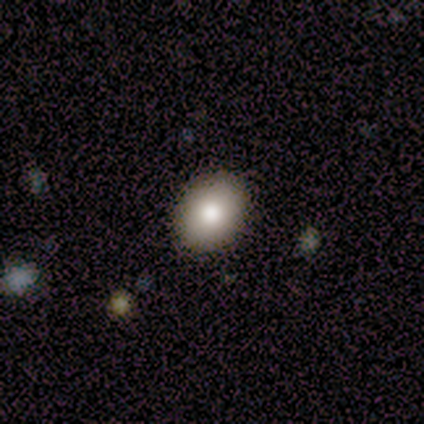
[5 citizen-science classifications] Q: Smooth or featured?
A: smooth (60%); runner-up: star or artifact (40%)
Q: How rounded?
A: round (67%); runner-up: in between (33%)
Q: Merging?
A: none (67%); runner-up: merger (33%)